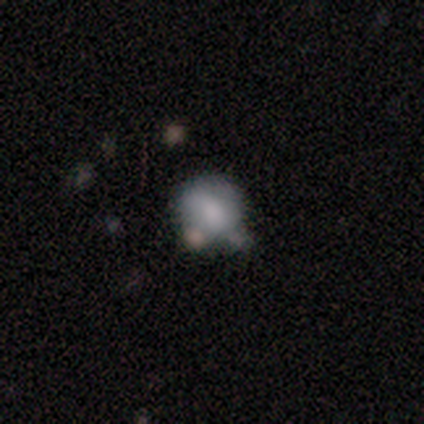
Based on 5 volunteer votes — smooth-or-featured: smooth: 80% | featured or disk: 20% | star or artifact: 0%
  how-rounded: round: 75% | in between: 25% | cigar-shaped: 0%
  merging: none: 80% | merger: 20% | minor disturbance: 0% | major disturbance: 0%